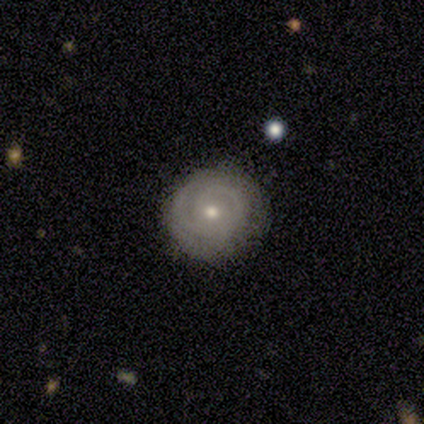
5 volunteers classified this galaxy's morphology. Overall: featured or disk (100%). Edge-on disk: no (100%). Bar: no (100%). Spiral arms: yes (80%). Spiral arm count: 3 (75%). Spiral winding: tight (100%). Bulge size: moderate (60%; small 40%). Merging: none (100%).